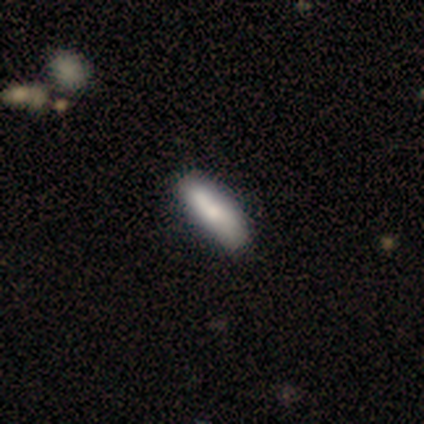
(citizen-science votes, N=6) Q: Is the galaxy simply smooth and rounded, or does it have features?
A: featured or disk — 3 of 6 (50%).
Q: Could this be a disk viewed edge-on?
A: no — 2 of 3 (67%).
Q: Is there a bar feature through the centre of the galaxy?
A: no — 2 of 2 (100%).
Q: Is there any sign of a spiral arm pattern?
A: yes — 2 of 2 (100%).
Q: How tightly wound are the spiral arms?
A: loose — 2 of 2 (100%).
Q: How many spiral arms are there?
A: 2 — 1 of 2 (50%, tied with can't tell).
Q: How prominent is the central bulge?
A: moderate — 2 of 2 (100%).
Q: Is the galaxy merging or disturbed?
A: none — 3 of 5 (60%).